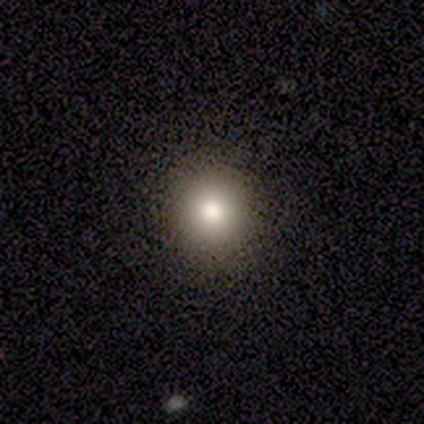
Smooth or featured? 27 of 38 (71%) said smooth. How rounded? 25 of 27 (93%) said round. Merging? 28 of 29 (97%) said none.